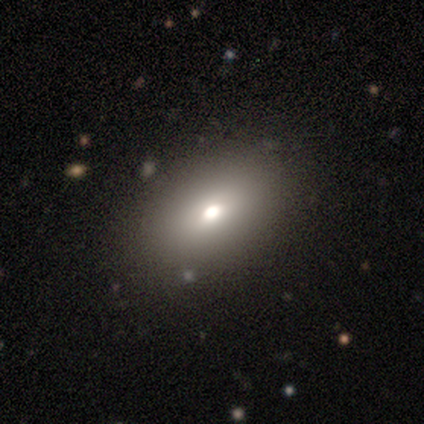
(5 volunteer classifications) This is likely a smooth galaxy (60%). How rounded: clearly in between (100%). Merging: clearly none (100%).